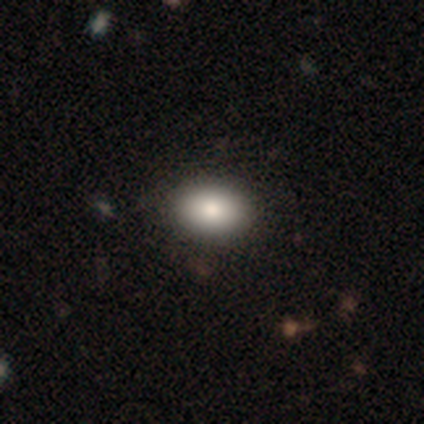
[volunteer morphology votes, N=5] smooth-or-featured: smooth: 80% | featured or disk: 20% | star or artifact: 0%
  how-rounded: in between: 100% | round: 0% | cigar-shaped: 0%
  merging: none: 60% | minor disturbance: 40% | major disturbance: 0% | merger: 0%